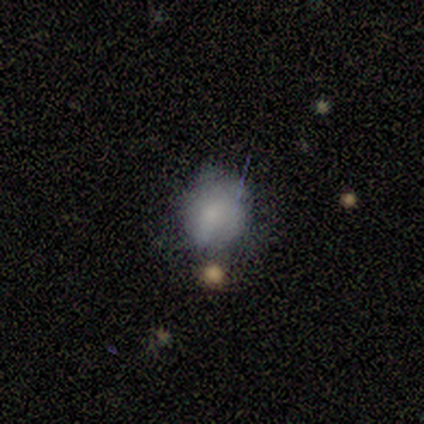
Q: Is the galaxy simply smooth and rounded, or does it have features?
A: smooth — 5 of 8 (62%).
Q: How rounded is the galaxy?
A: round — 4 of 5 (80%).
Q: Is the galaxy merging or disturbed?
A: major disturbance — 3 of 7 (43%).